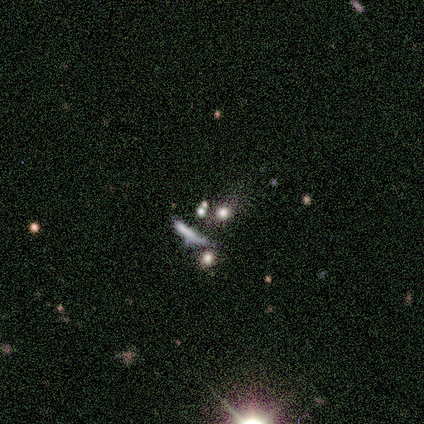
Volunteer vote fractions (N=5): This appears to be a featured or disk galaxy (60%) with a weak bar (50%, tied with no), no spiral arms (100%) and a large central bulge (50%, tied with none). Merging: merger (50%).